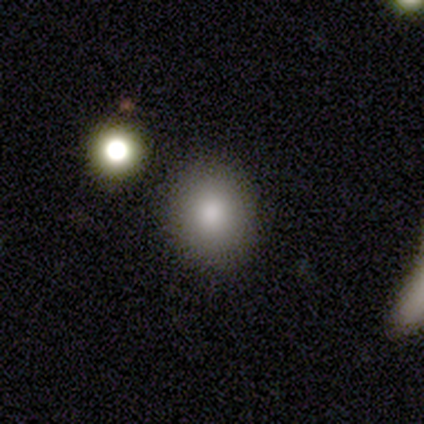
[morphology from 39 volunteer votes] A smooth galaxy with no disk features (82%) that is round (78%).

Vote fractions:
- Smooth or featured? smooth: 82% / featured or disk: 10% / star or artifact: 8%
- How rounded? round: 78% / in between: 22% / cigar-shaped: 0%
- Merging? none: 92% / minor disturbance: 6% / major disturbance: 3% / merger: 0%